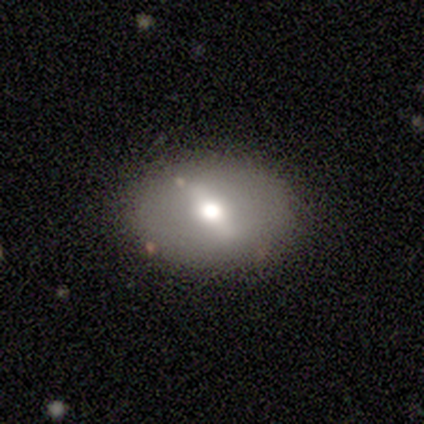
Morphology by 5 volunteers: A featured or disk galaxy (80%) viewed edge-on (50%, tied with no) with a rounded central bulge (100%). Merging: none (100%).